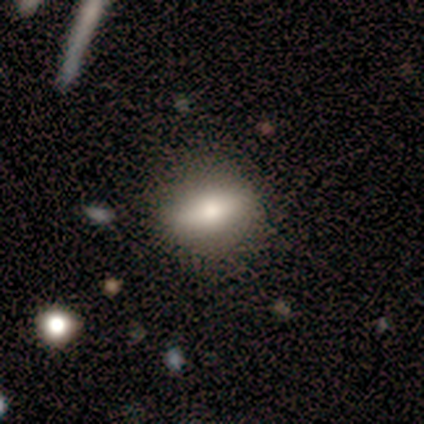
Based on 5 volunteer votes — featured or disk 60%, smooth 40%, star or artifact 0%. Down the decision tree: edge-on disk — no (100%); bar — strong (67%); spiral arms — no (100%); bulge size — large (33%, tied with moderate and small); merging — none (100%).